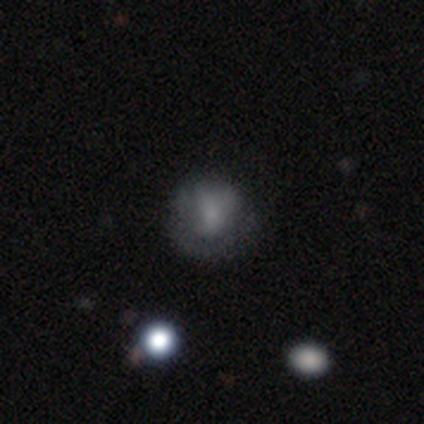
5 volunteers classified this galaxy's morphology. Q: Smooth or featured?
A: featured or disk (60%); runner-up: smooth (20%)
Q: Edge-on disk?
A: no (100%)
Q: Bar?
A: no (67%); runner-up: strong (33%)
Q: Spiral arms?
A: yes (67%); runner-up: no (33%)
Q: Spiral winding?
A: tight (50%); tied with: medium (50%)
Q: Spiral arm count?
A: can't tell (100%)
Q: Bulge size?
A: none (67%); runner-up: moderate (33%)
Q: Merging?
A: major disturbance (50%); runner-up: none (25%)